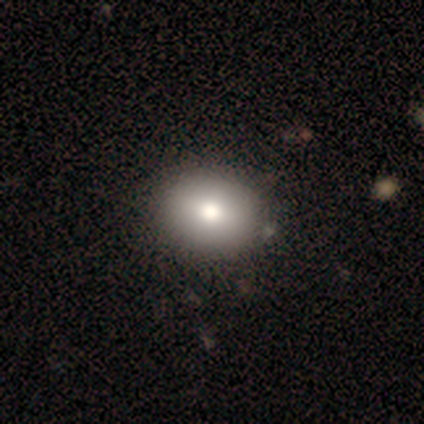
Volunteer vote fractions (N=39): smooth-or-featured: smooth: 79% | featured or disk: 10% | star or artifact: 10%
  how-rounded: round: 52% | in between: 48% | cigar-shaped: 0%
  merging: none: 57% | minor disturbance: 6% | major disturbance: 0% | merger: 0%